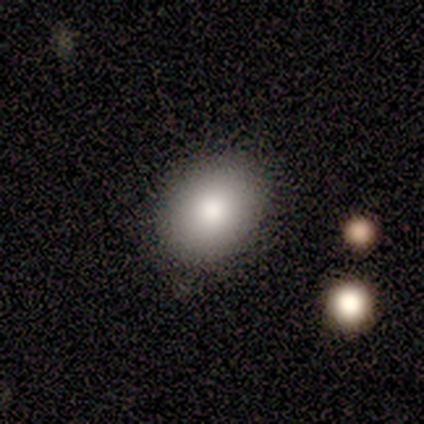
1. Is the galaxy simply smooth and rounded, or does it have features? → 50% smooth (tied), 50% featured or disk (tied), 0% star or artifact.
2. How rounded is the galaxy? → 100% round, 0% in between, 0% cigar-shaped.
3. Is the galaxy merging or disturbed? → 100% none, 0% minor disturbance, 0% major disturbance, 0% merger.